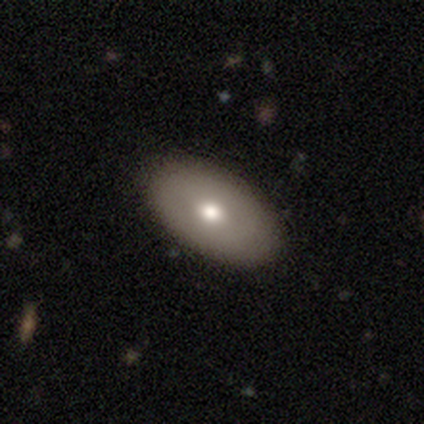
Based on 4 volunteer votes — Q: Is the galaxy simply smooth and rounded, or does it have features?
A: smooth — 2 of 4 (50%).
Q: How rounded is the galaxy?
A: in between — 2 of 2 (100%).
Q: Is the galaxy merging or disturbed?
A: none — 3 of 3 (100%).